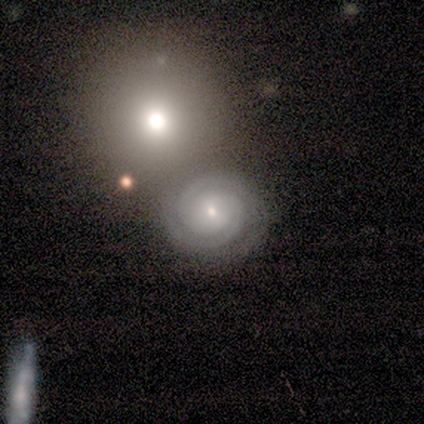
smooth_or_featured: featured or disk (p=1.00)
disk_edge_on: no (p=1.00)
bar: no (p=0.80) [alt: weak p=0.20]
has_spiral_arms: yes (p=1.00)
spiral_winding: tight (p=0.80) [alt: medium p=0.20]
spiral_arm_count: 2 (p=0.80) [alt: can't tell p=0.20]
bulge_size: small (p=1.00)
merging: none (p=1.00)